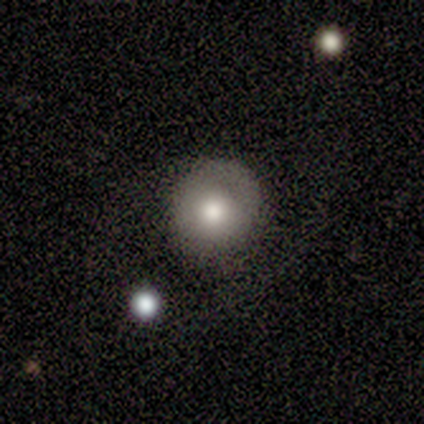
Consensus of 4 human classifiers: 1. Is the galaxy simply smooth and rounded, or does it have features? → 75% smooth, 25% featured or disk, 0% star or artifact.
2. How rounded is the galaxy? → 100% round, 0% in between, 0% cigar-shaped.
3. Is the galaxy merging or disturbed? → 75% none, 25% minor disturbance, 0% major disturbance, 0% merger.